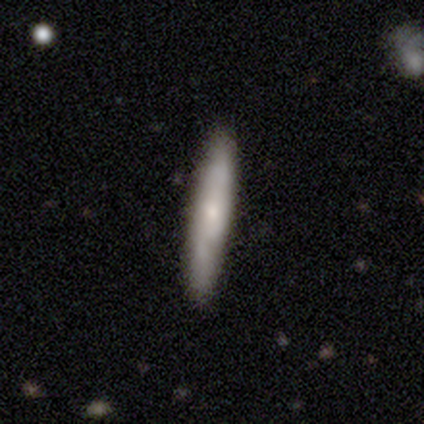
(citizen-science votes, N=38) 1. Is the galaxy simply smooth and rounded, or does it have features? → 55% smooth, 42% featured or disk, 3% star or artifact.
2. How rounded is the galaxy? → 95% cigar-shaped, 5% round, 0% in between.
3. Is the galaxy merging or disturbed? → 89% none, 11% minor disturbance, 0% major disturbance, 0% merger.